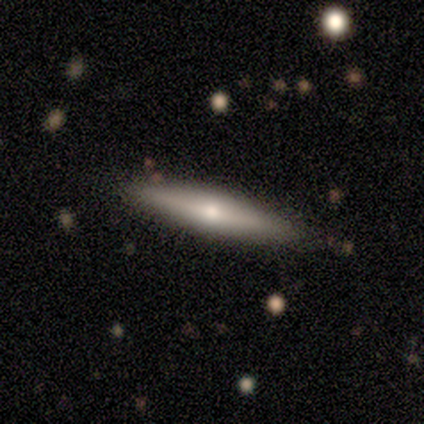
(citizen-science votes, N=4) Smooth or featured: smooth — 75% (featured or disk — 25%)
How rounded: cigar-shaped — 100%
Merging: none — 100%